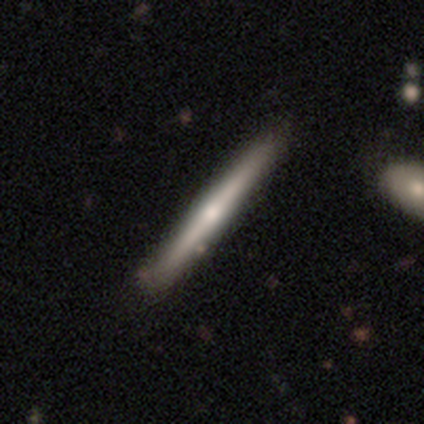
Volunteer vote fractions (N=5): Smooth or featured: featured or disk — 60% (smooth — 40%)
Edge-on disk: yes — 100%
Edge-on bulge: rounded — 67% (none — 33%)
Merging: none — 80% (minor disturbance — 20%)